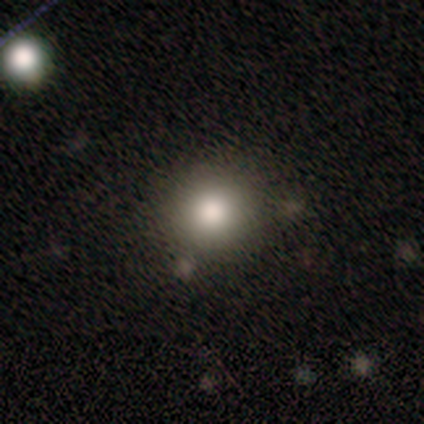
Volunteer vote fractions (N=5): Smooth or featured? smooth (60%)
How rounded? round (67%)
Merging? none (100%)